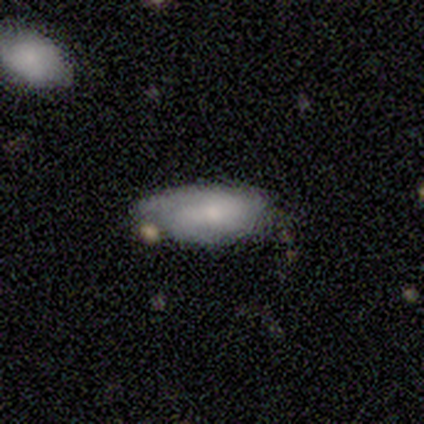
Smooth or featured: smooth — 40% (tied with featured or disk — 40%)
How rounded: in between — 50% (tied with cigar-shaped — 50%)
Merging: none — 50% (tied with minor disturbance — 50%)